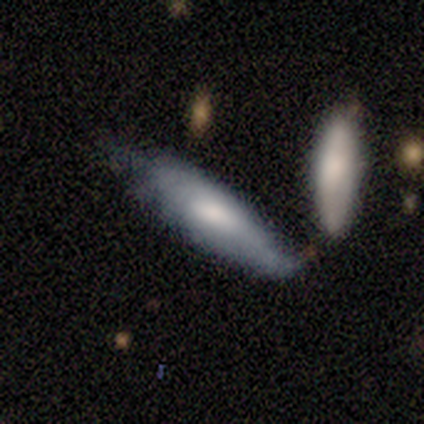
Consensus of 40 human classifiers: Smooth or featured?
  - smooth: 55% *
  - featured or disk: 45%
  - star or artifact: 0%
How rounded?
  - in between: 59% *
  - cigar-shaped: 41%
  - round: 0%
Merging?
  - none: 35% *
  - minor disturbance: 25%
  - merger: 25%
  - major disturbance: 15%